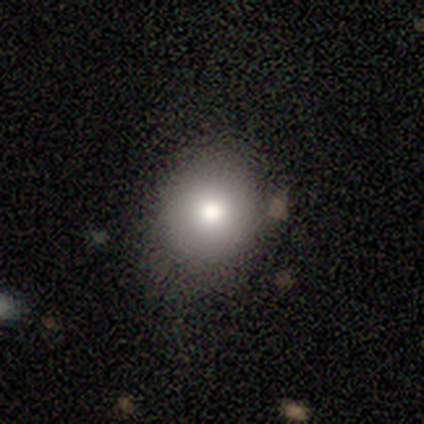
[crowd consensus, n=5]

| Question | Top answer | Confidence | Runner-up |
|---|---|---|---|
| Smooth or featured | smooth | 80% | featured or disk (20%) |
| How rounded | round | 100% | — |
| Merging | none | 100% | — |